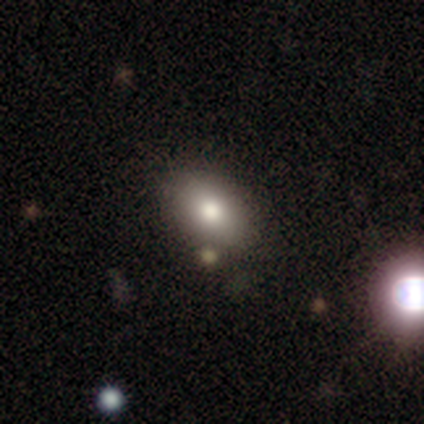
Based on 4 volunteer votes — smooth_or_featured: smooth (p=1.00)
how_rounded: in between (p=1.00)
merging: none (p=0.50) [alt: minor disturbance p=0.25]